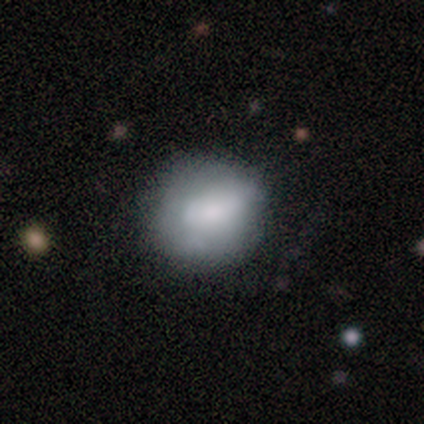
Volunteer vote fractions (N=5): Smooth or featured? 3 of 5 (60%) said featured or disk. Edge-on disk? 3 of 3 (100%) said no. Bar? 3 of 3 (100%) said no. Spiral arms? 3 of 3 (100%) said no. Bulge size? 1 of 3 (33%, tied with small and none) said moderate. Merging? 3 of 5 (60%) said none.